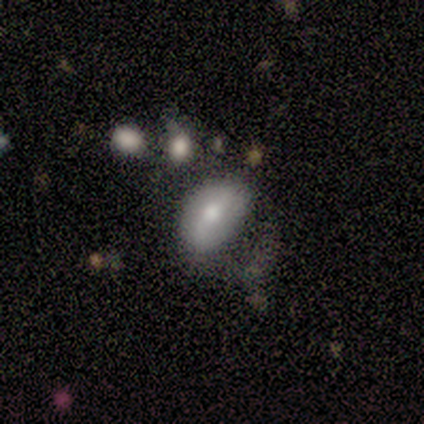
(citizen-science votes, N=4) Smooth or featured?
  - featured or disk: 75% *
  - smooth: 25%
  - star or artifact: 0%
Edge-on disk?
  - no: 100% *
  - yes: 0%
Bar?
  - strong: 33% * (tied)
  - weak: 33% * (tied)
  - no: 33% * (tied)
Spiral arms?
  - yes: 67% *
  - no: 33%
Spiral winding?
  - tight: 50% * (tied)
  - loose: 50% * (tied)
  - medium: 0%
Spiral arm count?
  - 2: 100% *
  - 1: 0%
  - 3: 0%
  - 4: 0%
  - more than 4: 0%
  - can't tell: 0%
Bulge size?
  - moderate: 100% *
  - dominant: 0%
  - large: 0%
  - small: 0%
  - none: 0%
Merging?
  - none: 75% *
  - minor disturbance: 25%
  - major disturbance: 0%
  - merger: 0%